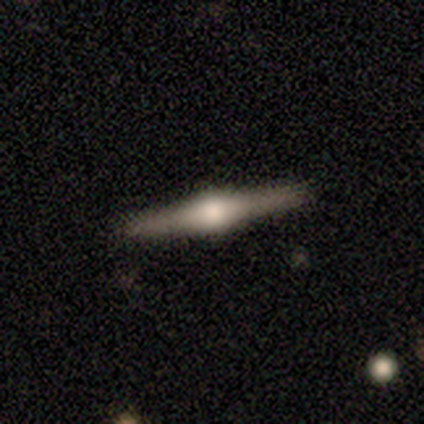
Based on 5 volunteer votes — Overall: featured or disk (80%). Edge-on disk: yes (100%). Edge-on bulge: rounded (100%). Merging: none (60%; minor disturbance 40%).